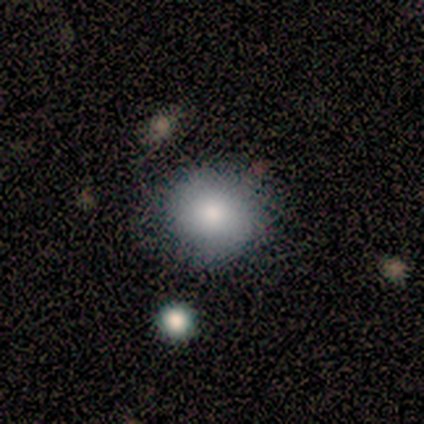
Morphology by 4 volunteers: type=smooth (75%); roundness=round (100%); merging=none (100%).